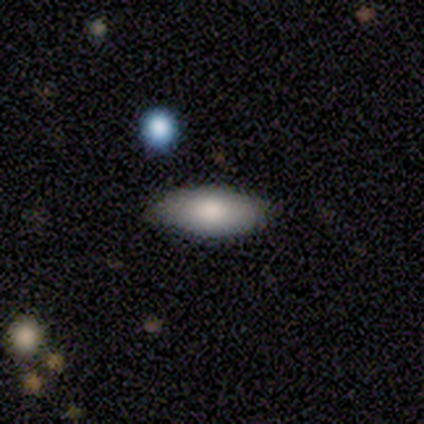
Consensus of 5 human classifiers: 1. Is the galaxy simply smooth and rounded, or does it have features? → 80% smooth, 20% featured or disk, 0% star or artifact.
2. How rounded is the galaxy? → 75% in between, 25% cigar-shaped, 0% round.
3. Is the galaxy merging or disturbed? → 100% none, 0% minor disturbance, 0% major disturbance, 0% merger.